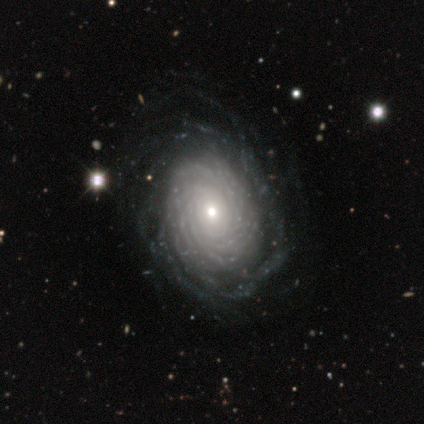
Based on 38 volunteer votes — Smooth or featured?
  - featured or disk: 89% *
  - smooth: 11%
  - star or artifact: 0%
Edge-on disk?
  - no: 94% *
  - yes: 6%
Bar?
  - no: 91% *
  - weak: 6%
  - strong: 3%
Spiral arms?
  - yes: 100% *
  - no: 0%
Spiral winding?
  - tight: 94% *
  - medium: 6%
  - loose: 0%
Spiral arm count?
  - more than 4: 69% *
  - can't tell: 25%
  - 4: 6%
  - 1: 0%
  - 2: 0%
  - 3: 0%
Bulge size?
  - small: 59% *
  - moderate: 38%
  - large: 3%
  - dominant: 0%
  - none: 0%
Merging?
  - none: 63% *
  - minor disturbance: 8%
  - major disturbance: 3%
  - merger: 3%